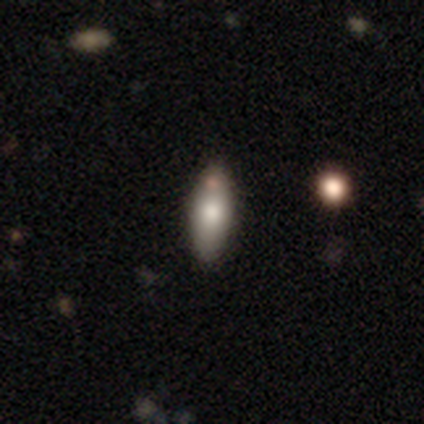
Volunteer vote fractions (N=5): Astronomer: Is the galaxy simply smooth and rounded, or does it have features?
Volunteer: smooth — 60% (runner-up: star or artifact, 40%).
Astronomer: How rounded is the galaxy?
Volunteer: in between — 67%.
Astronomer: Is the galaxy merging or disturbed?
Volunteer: none — 67%.